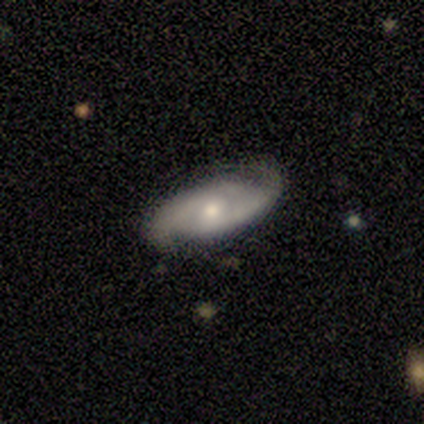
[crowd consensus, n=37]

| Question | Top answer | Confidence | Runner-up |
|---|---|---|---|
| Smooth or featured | featured or disk | 81% | smooth (16%) |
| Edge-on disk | no | 93% | yes (7%) |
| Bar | no | 50% | weak (43%) |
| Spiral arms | yes | 93% | no (7%) |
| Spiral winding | medium | 42% | loose (31%) |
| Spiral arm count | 2 | 92% | 3 (4%) |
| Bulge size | moderate | 54% | small (36%) |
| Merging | none | 69% | minor disturbance (17%) |